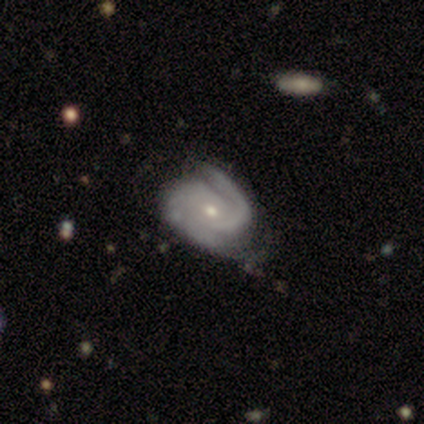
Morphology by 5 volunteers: Q: Smooth or featured?
A: featured or disk (100%)
Q: Edge-on disk?
A: no (100%)
Q: Bar?
A: weak (60%); runner-up: no (40%)
Q: Spiral arms?
A: yes (100%)
Q: Spiral winding?
A: tight (60%); runner-up: medium (20%)
Q: Spiral arm count?
A: 2 (60%); runner-up: 1 (20%)
Q: Bulge size?
A: small (60%); runner-up: moderate (40%)
Q: Merging?
A: none (60%); runner-up: minor disturbance (20%)